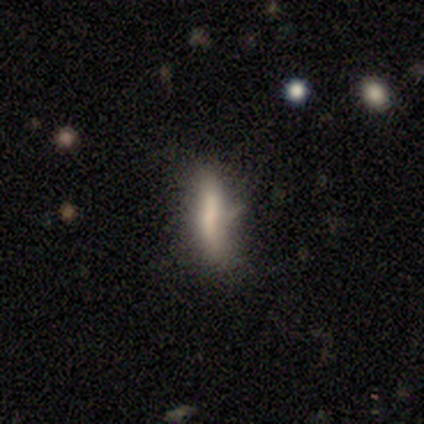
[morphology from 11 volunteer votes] Smooth or featured?
  - smooth: 45% *
  - featured or disk: 36%
  - star or artifact: 18%
How rounded?
  - cigar-shaped: 100% *
  - round: 0%
  - in between: 0%
Merging?
  - none: 78% *
  - minor disturbance: 11%
  - major disturbance: 11%
  - merger: 0%